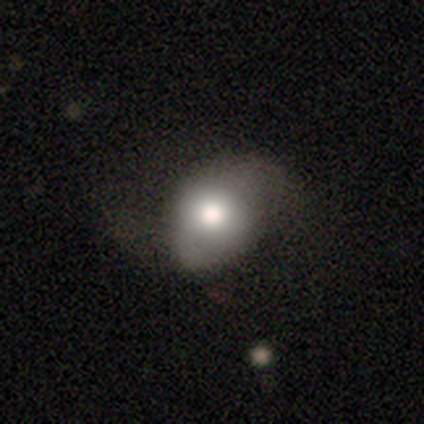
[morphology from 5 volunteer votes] A smooth galaxy with no disk features (60%) that is round (67%).

Vote fractions:
- Smooth or featured? smooth: 60% / featured or disk: 40% / star or artifact: 0%
- How rounded? round: 67% / in between: 33% / cigar-shaped: 0%
- Merging? none: 60% / major disturbance: 40% / minor disturbance: 0% / merger: 0%